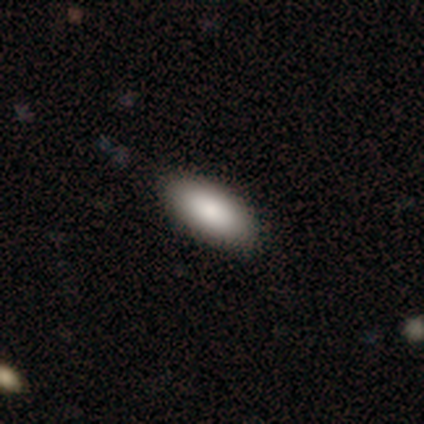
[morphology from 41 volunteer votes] Volunteers were most divided on "merging": none: 66%, minor disturbance: 5%, major disturbance: 0%, merger: 0%. More confident: smooth or featured — smooth (93%); how rounded — in between (89%).